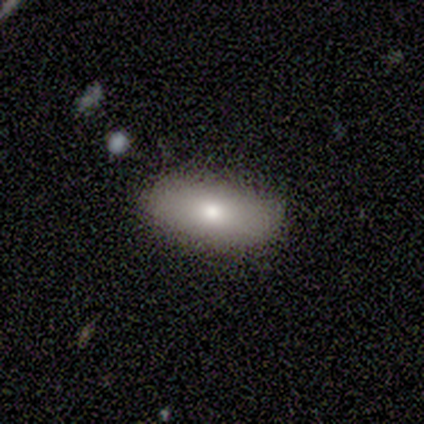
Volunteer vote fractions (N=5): Smooth or featured? 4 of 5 (80%) said smooth. How rounded? 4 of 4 (100%) said in between. Merging? 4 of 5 (80%) said none.